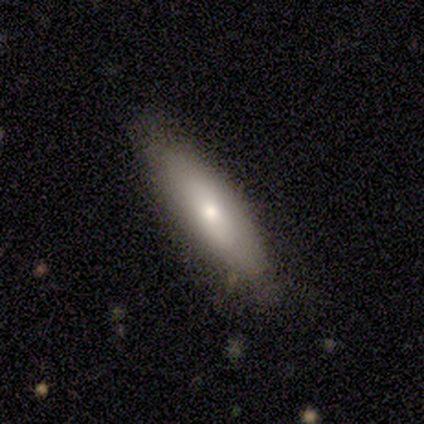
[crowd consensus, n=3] Q: Smooth or featured?
A: smooth (67%); runner-up: featured or disk (33%)
Q: How rounded?
A: in between (50%); tied with: cigar-shaped (50%)
Q: Merging?
A: none (100%)